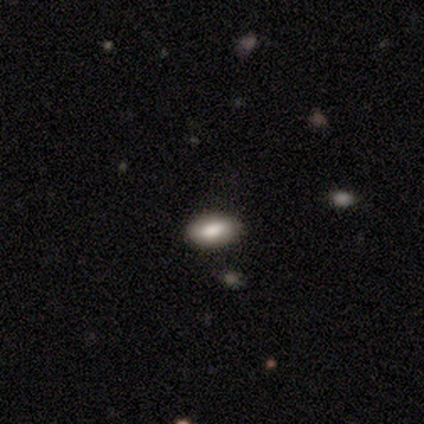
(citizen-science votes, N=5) Smooth or featured: smooth — 80% (featured or disk — 20%)
How rounded: in between — 100%
Merging: none — 40% (tied with minor disturbance — 40%)